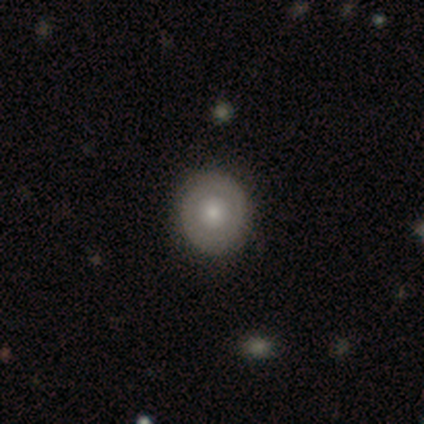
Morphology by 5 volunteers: This appears to be a featured or disk galaxy (100%) with no bar (100%), no spiral arms (80%) and a moderate central bulge (60%). Merging: none (100%).